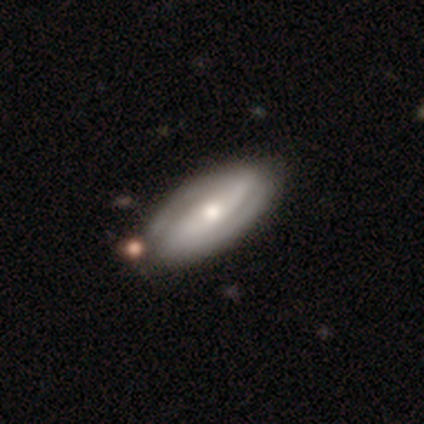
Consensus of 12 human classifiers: Overall: featured or disk (67%). Edge-on disk: no (88%). Bar: no (57%; strong 29%). Spiral arms: yes (86%). Spiral arm count: 2 (83%). Spiral winding: tight (83%). Bulge size: moderate (43%, tied with small). Merging: none (80%).